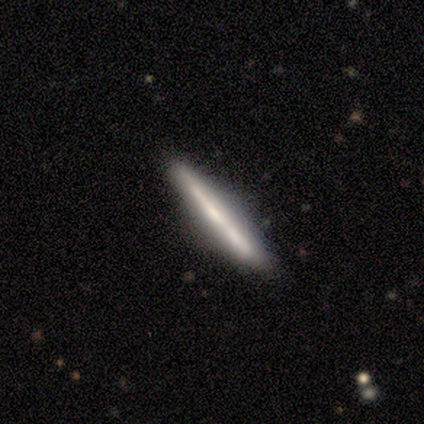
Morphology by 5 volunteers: Smooth or featured?
  - featured or disk: 60% *
  - smooth: 40%
  - star or artifact: 0%
Edge-on disk?
  - yes: 100% *
  - no: 0%
Edge-on bulge?
  - none: 67% *
  - rounded: 33%
  - boxy: 0%
Merging?
  - none: 100% *
  - minor disturbance: 0%
  - major disturbance: 0%
  - merger: 0%